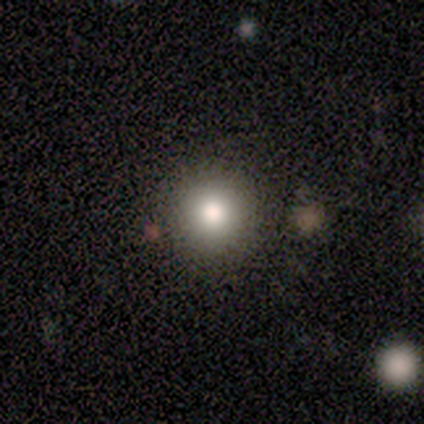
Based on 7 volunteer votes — This is likely a smooth galaxy (71%). How rounded: clearly round (80%). Merging: clearly none (100%).